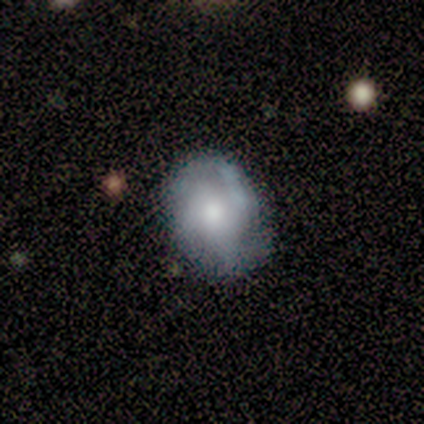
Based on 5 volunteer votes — Morphology: type=featured or disk (60%); edge-on=no (100%); bar=no (100%); spiral arms=no (67%); bulge=small (67%); merging=none (80%).